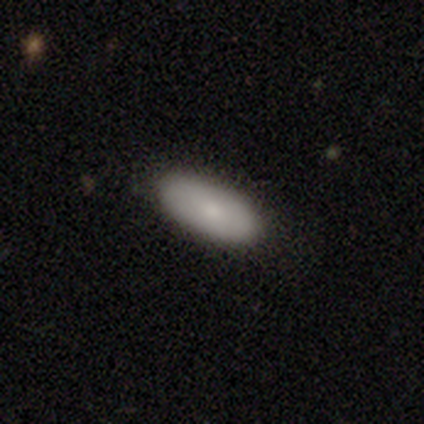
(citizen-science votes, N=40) Smooth or featured? 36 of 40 (90%) said smooth. How rounded? 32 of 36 (89%) said in between. Merging? 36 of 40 (90%) said none.